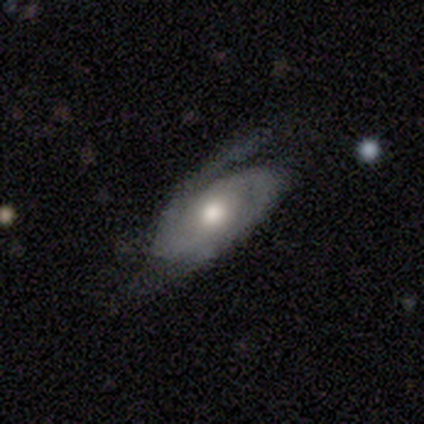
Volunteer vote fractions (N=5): Volunteers were most divided on "smooth or featured": featured or disk: 60%, smooth: 40%, star or artifact: 0%. More confident: edge-on disk — no (100%); spiral arms — yes (100%); spiral arm count — 2 (100%); bar — no (67%); spiral winding — medium (67%); bulge size — moderate (67%); merging — minor disturbance (60%).